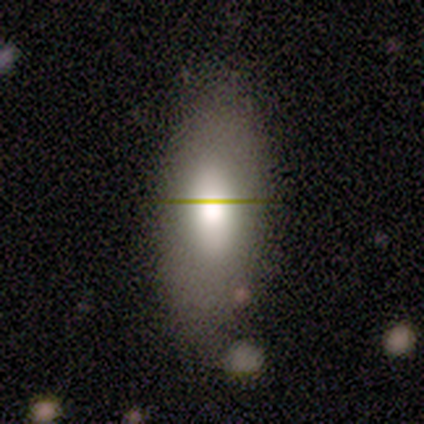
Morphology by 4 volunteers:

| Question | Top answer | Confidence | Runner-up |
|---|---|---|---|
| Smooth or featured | featured or disk | 50% | smooth (25%) |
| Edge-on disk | yes | 50% | tied: no (50%) |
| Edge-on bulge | rounded | 100% | — |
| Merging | none | 67% | minor disturbance (33%) |